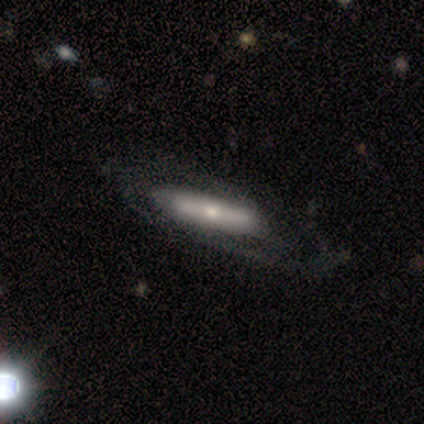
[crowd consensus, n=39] Smooth or featured: featured or disk — 72% (smooth — 28%)
Edge-on disk: yes — 54% (no — 46%)
Edge-on bulge: rounded — 73% (none — 20%)
Merging: none — 44% (major disturbance — 15%)